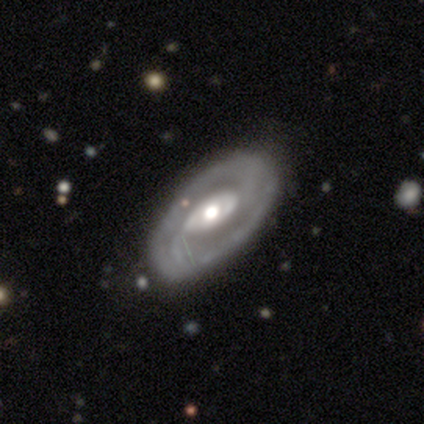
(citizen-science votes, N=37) A featured or disk galaxy (86%) with no bar (60%), 2 (82%) tight (55%) spiral arms (73%) and a moderate central bulge (87%). Merging: none (77%).